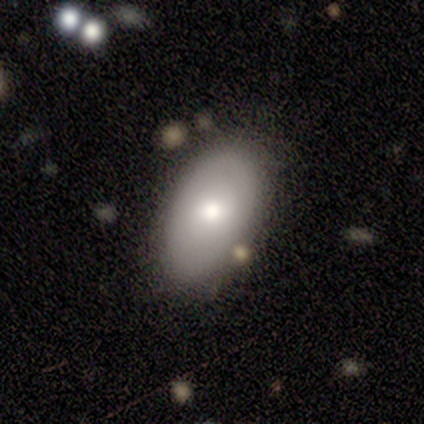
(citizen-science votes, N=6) Q: Smooth or featured?
A: smooth (67%); runner-up: featured or disk (17%)
Q: How rounded?
A: in between (75%); runner-up: round (25%)
Q: Merging?
A: none (100%)